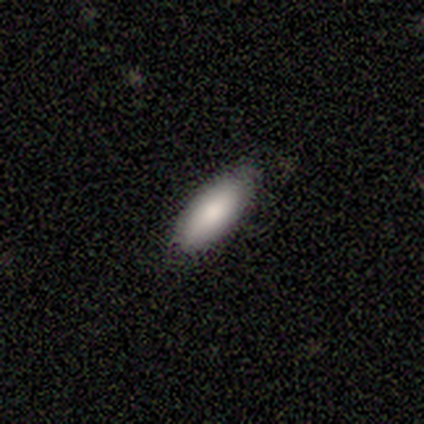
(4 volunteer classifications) A smooth galaxy with no disk features (75%) that is in between round and cigar-shaped (100%).

Vote fractions:
- Smooth or featured? smooth: 75% / featured or disk: 25% / star or artifact: 0%
- How rounded? in between: 100% / round: 0% / cigar-shaped: 0%
- Merging? none: 75% / minor disturbance: 25% / major disturbance: 0% / merger: 0%